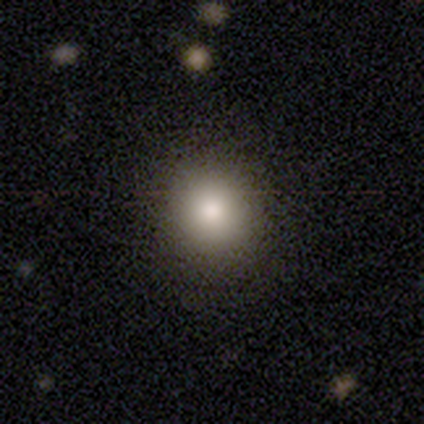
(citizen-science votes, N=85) This is clearly a smooth galaxy (86%). How rounded: clearly round (95%). Merging: clearly none (91%).